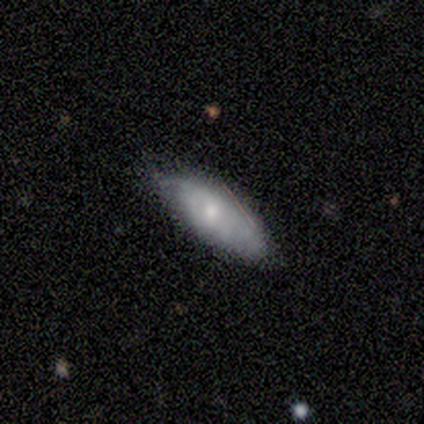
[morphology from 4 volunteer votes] smooth 50% (tied), featured or disk 50% (tied), star or artifact 0%. Down the decision tree: how rounded — in between (100%); merging — none (75%).